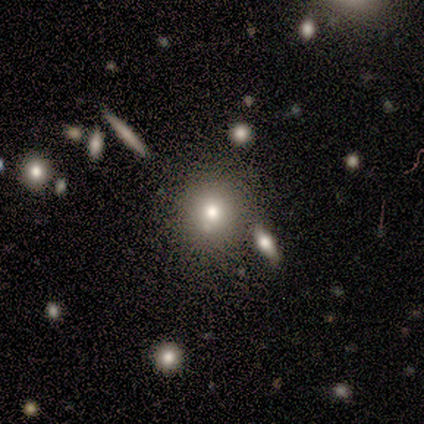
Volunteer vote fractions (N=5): Q: Smooth or featured?
A: smooth (60%); runner-up: featured or disk (20%)
Q: How rounded?
A: round (67%); runner-up: in between (33%)
Q: Merging?
A: none (75%); runner-up: minor disturbance (25%)